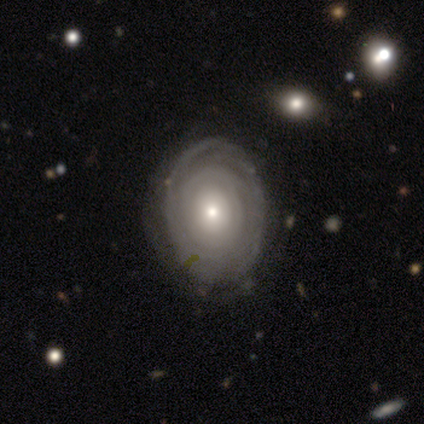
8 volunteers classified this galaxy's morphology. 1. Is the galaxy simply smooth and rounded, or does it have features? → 88% featured or disk, 12% star or artifact, 0% smooth.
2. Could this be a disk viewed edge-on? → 86% no, 14% yes.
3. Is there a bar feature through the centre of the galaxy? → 100% no, 0% strong, 0% weak.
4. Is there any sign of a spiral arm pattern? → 50% yes (tied), 50% no (tied).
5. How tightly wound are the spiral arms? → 67% tight, 33% loose, 0% medium.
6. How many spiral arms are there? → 67% 3, 33% can't tell, 0% 1, 0% 2, 0% 4, 0% more than 4.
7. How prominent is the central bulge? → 50% moderate, 33% small, 17% dominant, 0% large, 0% none.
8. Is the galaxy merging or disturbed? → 71% none, 14% minor disturbance, 14% major disturbance, 0% merger.